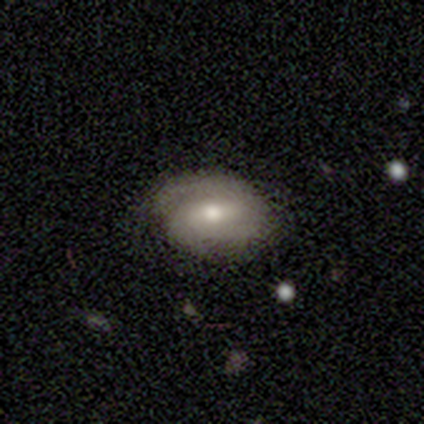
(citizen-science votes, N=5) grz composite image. It shows a featured or disk galaxy (80%) with a weak bar (75%), 2 (67%) tight (67%) spiral arms (75%) and a moderate central bulge (75%). Merging: none (75%).